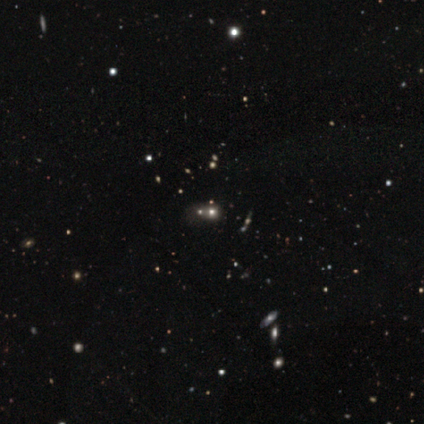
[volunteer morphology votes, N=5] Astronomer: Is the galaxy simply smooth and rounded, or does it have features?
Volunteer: star or artifact — 80%.